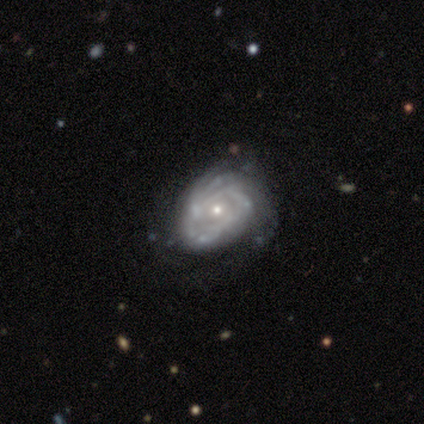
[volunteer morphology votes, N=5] smooth-or-featured: featured or disk: 100% | smooth: 0% | star or artifact: 0%
  disk-edge-on: no: 100% | yes: 0%
    bar: no: 100% | strong: 0% | weak: 0%
    has-spiral-arms: yes: 100% | no: 0%
      spiral-winding: medium: 60% | tight: 40% | loose: 0%
      spiral-arm-count: 2: 40% (tied) | can't tell: 40% (tied) | more than 4: 20% | 1: 0% | 3: 0% | 4: 0%
    bulge-size: small: 60% | moderate: 40% | dominant: 0% | large: 0% | none: 0%
  merging: none: 40% (tied) | major disturbance: 40% (tied) | minor disturbance: 20% | merger: 0%